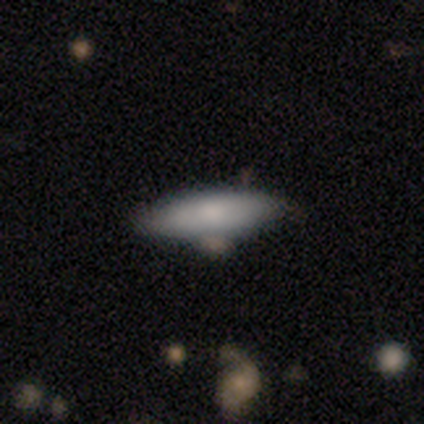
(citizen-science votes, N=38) Smooth or featured?
  - smooth: 68% *
  - featured or disk: 29%
  - star or artifact: 3%
How rounded?
  - in between: 62% *
  - cigar-shaped: 35%
  - round: 4%
Merging?
  - none: 76% *
  - minor disturbance: 16%
  - major disturbance: 8%
  - merger: 0%